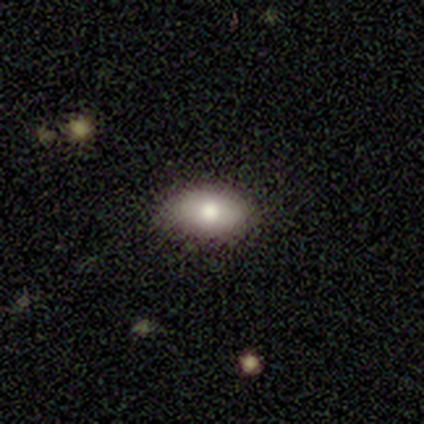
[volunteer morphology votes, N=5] Overall: smooth (100%). How rounded: in between (100%). Merging: none (100%).